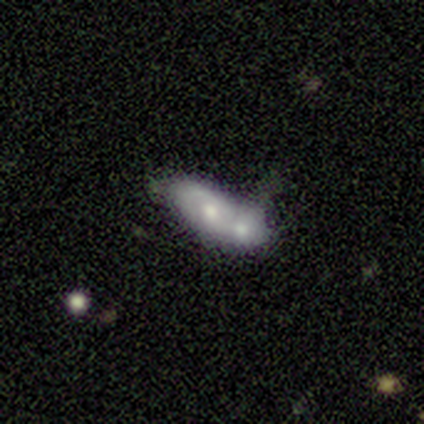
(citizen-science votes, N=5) This appears to be a featured or disk galaxy (60%) with no bar (100%), medium (100%) spiral arms (50%, tied with no) and a moderate central bulge (100%). Merging: merger (100%).